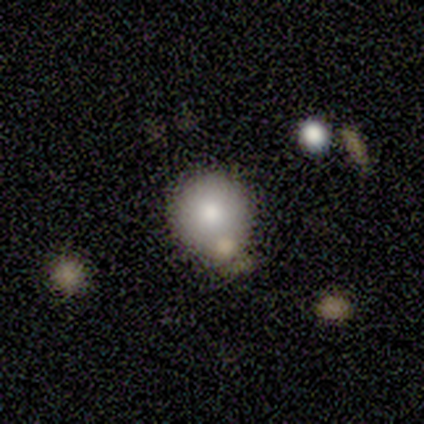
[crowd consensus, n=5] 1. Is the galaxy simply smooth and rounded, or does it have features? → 40% smooth (tied), 40% star or artifact (tied), 20% featured or disk.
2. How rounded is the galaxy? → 100% round, 0% in between, 0% cigar-shaped.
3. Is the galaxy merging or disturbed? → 33% none (tied), 33% minor disturbance (tied), 33% merger (tied), 0% major disturbance.